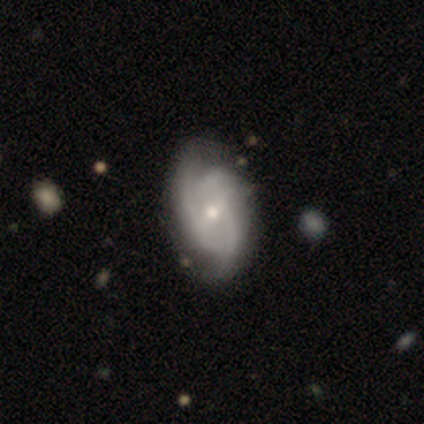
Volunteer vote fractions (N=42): Smooth or featured? featured or disk (83%)
Edge-on disk? no (97%)
Bar? weak (59%)
Spiral arms? yes (100%)
Spiral winding? medium (53%)
Spiral arm count? 3 (50%)
Bulge size? moderate (62%)
Merging? none (54%)